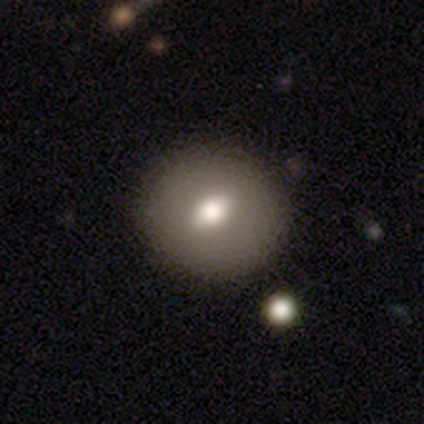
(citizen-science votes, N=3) Smooth or featured? 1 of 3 (33%, tied with featured or disk and star or artifact) said smooth. How rounded? 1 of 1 (100%) said in between. Merging? 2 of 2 (100%) said none.